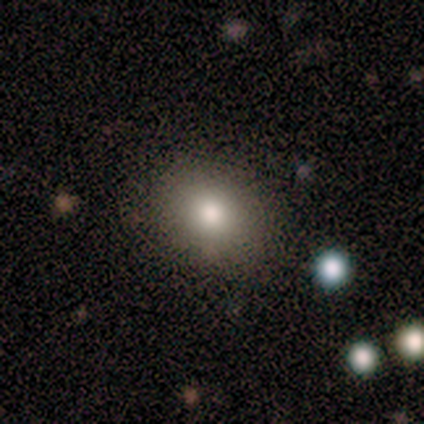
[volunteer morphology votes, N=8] This appears to be a smooth galaxy with no disk features (88%) that is round (57%). Merging: none (88%).